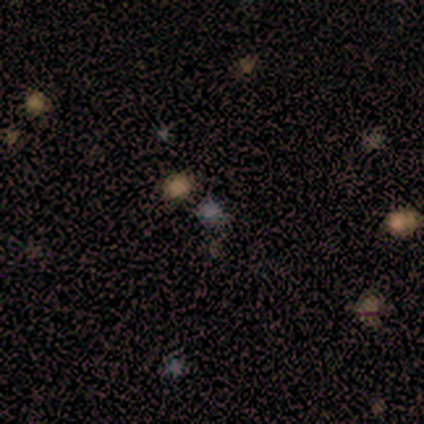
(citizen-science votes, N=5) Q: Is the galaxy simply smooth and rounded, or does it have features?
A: smooth — 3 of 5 (60%).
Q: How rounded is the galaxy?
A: round — 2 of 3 (67%).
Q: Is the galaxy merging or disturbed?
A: none — 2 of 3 (67%).